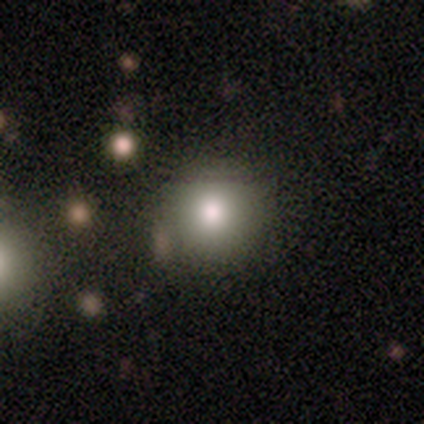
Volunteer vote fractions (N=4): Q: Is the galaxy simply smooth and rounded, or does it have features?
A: smooth — 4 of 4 (100%).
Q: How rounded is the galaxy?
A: round — 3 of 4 (75%).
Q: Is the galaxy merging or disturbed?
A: none — 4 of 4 (100%).